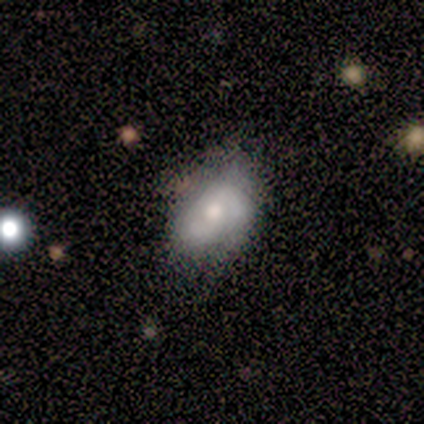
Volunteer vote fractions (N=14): This appears to be a smooth galaxy with no disk features (50%) that is in between round and cigar-shaped (86%). Merging: minor disturbance (55%).